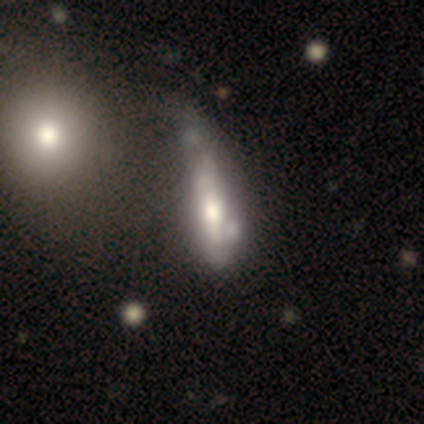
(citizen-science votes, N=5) smooth_or_featured: featured or disk (p=1.00)
disk_edge_on: yes (p=0.60) [alt: no p=0.40]
edge_on_bulge: boxy (p=0.67) [alt: rounded p=0.33]
merging: merger (p=0.60) [alt: minor disturbance p=0.20]